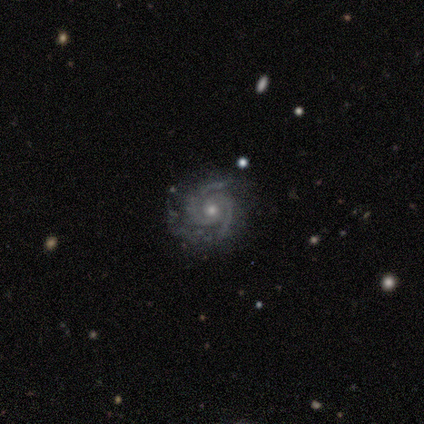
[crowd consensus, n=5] A featured or disk galaxy (100%) with no bar (100%), 2 (75%) tight (75%) spiral arms (100%) and a moderate central bulge (75%). Merging: none (60%).